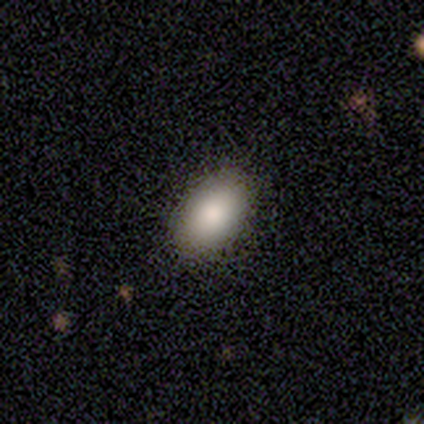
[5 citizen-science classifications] Morphology: type=smooth (80%); roundness=in between (100%); merging=none (80%).